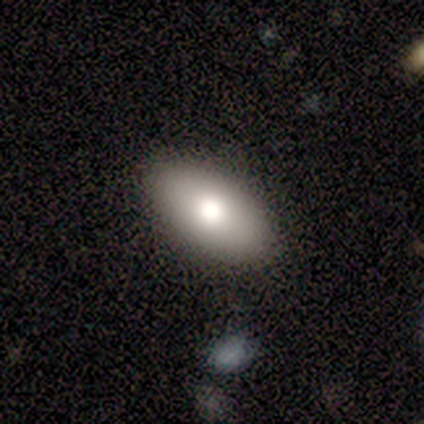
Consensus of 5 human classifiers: smooth 80%, featured or disk 20%, star or artifact 0%. Down the decision tree: how rounded — in between (100%); merging — none (100%).